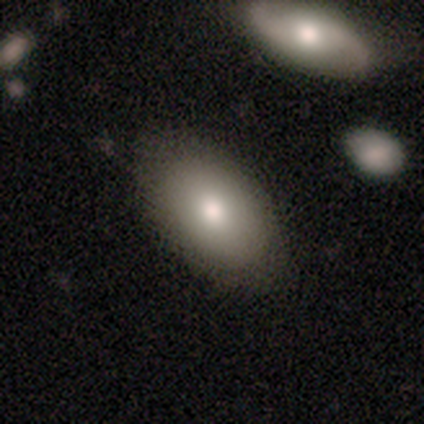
Smooth or featured?
  - smooth: 80% *
  - featured or disk: 10%
  - star or artifact: 10%
How rounded?
  - in between: 94% *
  - round: 6%
  - cigar-shaped: 0%
Merging?
  - none: 81% *
  - minor disturbance: 11%
  - merger: 6%
  - major disturbance: 3%